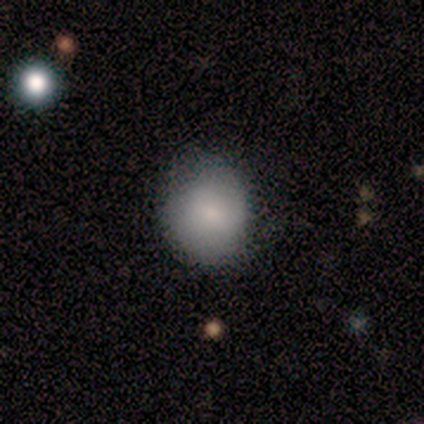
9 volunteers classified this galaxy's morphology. A smooth galaxy with no disk features (89%) that is round (75%). Merging: none (88%).